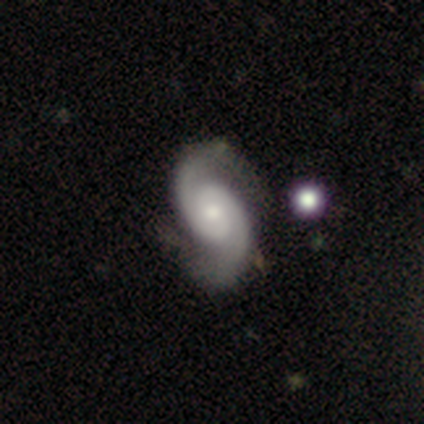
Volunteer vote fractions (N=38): smooth_or_featured: featured or disk (p=0.95) [alt: smooth p=0.03]
disk_edge_on: no (p=0.94) [alt: yes p=0.06]
bar: no (p=0.76) [alt: strong p=0.12]
has_spiral_arms: yes (p=1.00)
spiral_winding: tight (p=0.41) [tied with: medium p=0.41]
spiral_arm_count: 2 (p=0.97) [alt: can't tell p=0.03]
bulge_size: moderate (p=0.53) [alt: small p=0.38]
merging: none (p=0.38) [alt: minor disturbance p=0.14]